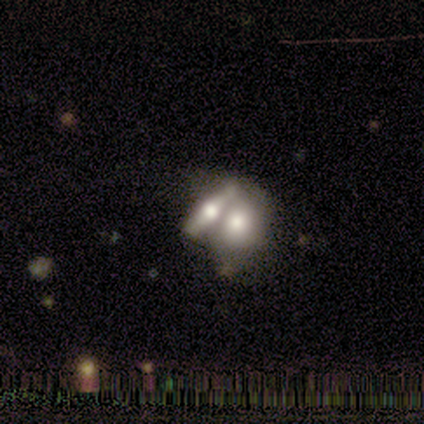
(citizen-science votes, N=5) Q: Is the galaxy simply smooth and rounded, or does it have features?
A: smooth — 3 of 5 (60%).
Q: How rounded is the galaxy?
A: in between — 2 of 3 (67%).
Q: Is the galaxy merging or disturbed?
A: merger — 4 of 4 (100%).